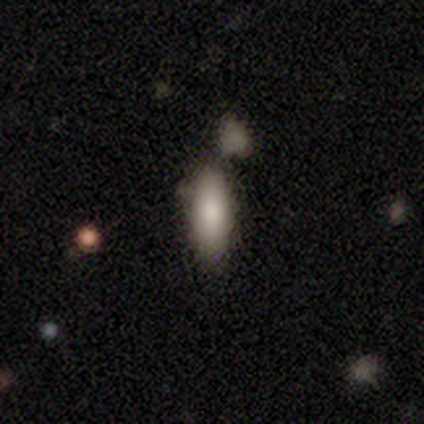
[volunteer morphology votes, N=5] Volunteers were most divided on "merging": none: 50%, minor disturbance: 25%, merger: 25%, major disturbance: 0%. More confident: smooth or featured — smooth (80%); how rounded — cigar-shaped (75%).